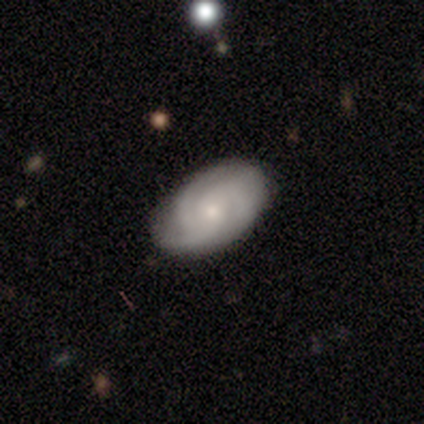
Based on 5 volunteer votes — Smooth or featured?
  - featured or disk: 100% *
  - smooth: 0%
  - star or artifact: 0%
Edge-on disk?
  - no: 100% *
  - yes: 0%
Bar?
  - no: 80% *
  - strong: 20%
  - weak: 0%
Spiral arms?
  - yes: 100% *
  - no: 0%
Spiral winding?
  - medium: 40% * (tied)
  - loose: 40% * (tied)
  - tight: 20%
Spiral arm count?
  - 3: 80% *
  - 2: 20%
  - 1: 0%
  - 4: 0%
  - more than 4: 0%
  - can't tell: 0%
Bulge size?
  - small: 80% *
  - large: 20%
  - dominant: 0%
  - moderate: 0%
  - none: 0%
Merging?
  - none: 80% *
  - minor disturbance: 20%
  - major disturbance: 0%
  - merger: 0%